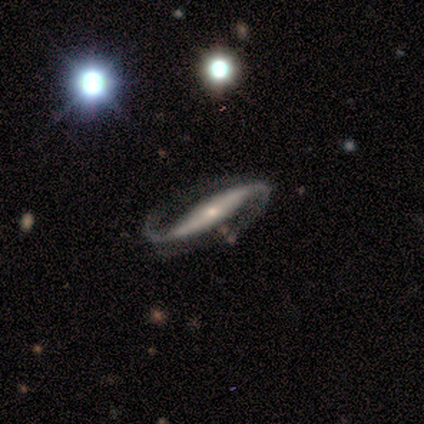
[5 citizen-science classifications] Volunteers were most divided on "spiral winding": loose: 67%, medium: 33%, tight: 0%. More confident: bar — no (100%); spiral arms — yes (100%); merging — none (100%); smooth or featured — featured or disk (80%); edge-on disk — no (75%); spiral arm count — 2 (67%); bulge size — small (67%).